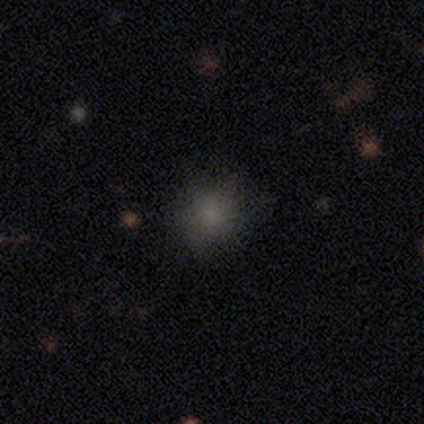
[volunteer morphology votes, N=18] Smooth or featured? 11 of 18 (61%) said smooth. How rounded? 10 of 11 (91%) said round. Merging? 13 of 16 (81%) said none.